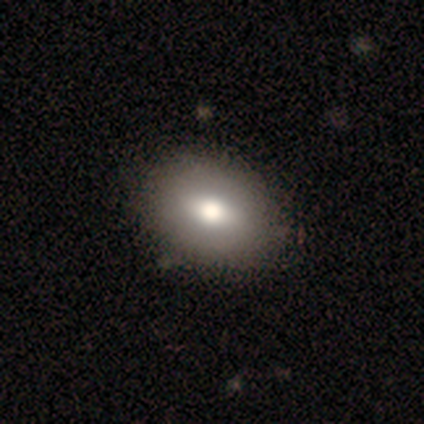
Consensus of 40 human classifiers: This appears to be a smooth galaxy with no disk features (82%) that is in between round and cigar-shaped (70%). Merging: none (68%).